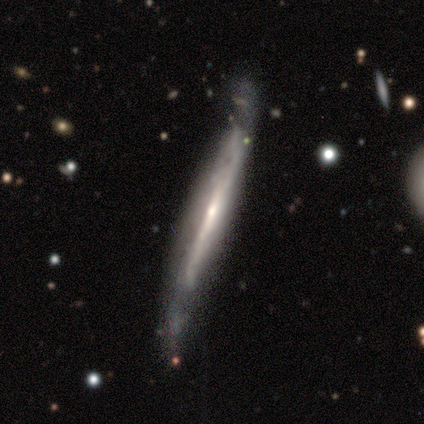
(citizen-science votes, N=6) smooth_or_featured: featured or disk (p=1.00)
disk_edge_on: yes (p=1.00)
edge_on_bulge: none (p=0.83) [alt: rounded p=0.17]
merging: minor disturbance (p=0.67) [alt: none p=0.33]